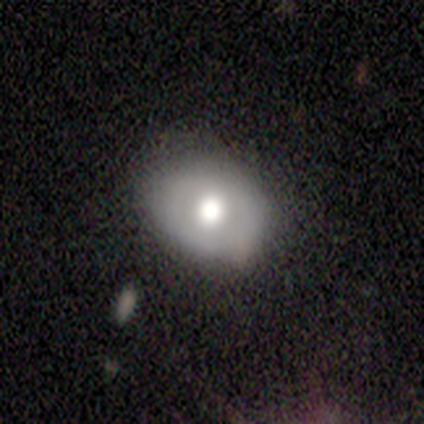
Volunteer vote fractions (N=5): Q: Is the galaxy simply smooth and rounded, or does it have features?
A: smooth — 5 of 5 (100%).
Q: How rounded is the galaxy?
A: round — 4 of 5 (80%).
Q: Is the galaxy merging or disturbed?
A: minor disturbance — 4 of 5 (80%).